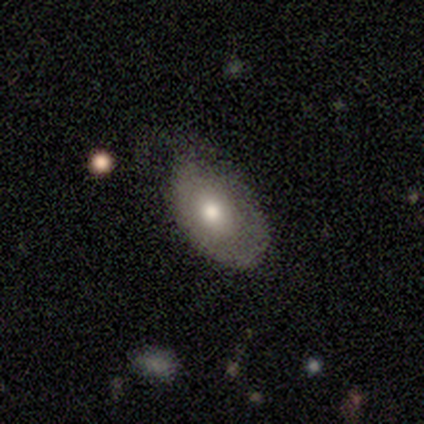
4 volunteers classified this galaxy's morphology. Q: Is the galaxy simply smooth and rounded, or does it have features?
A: smooth — 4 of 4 (100%).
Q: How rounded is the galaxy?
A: in between — 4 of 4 (100%).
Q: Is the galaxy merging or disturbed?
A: none — 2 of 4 (50%, tied with minor disturbance).